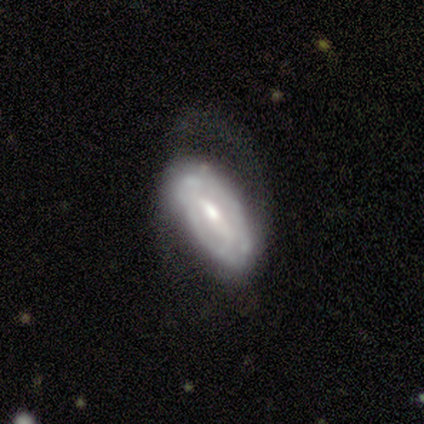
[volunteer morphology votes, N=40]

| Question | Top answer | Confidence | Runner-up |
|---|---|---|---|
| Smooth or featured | featured or disk | 75% | smooth (22%) |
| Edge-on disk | no | 87% | yes (13%) |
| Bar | weak | 50% | strong (35%) |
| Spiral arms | yes | 65% | no (35%) |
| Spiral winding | tight | 59% | medium (41%) |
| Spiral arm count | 2 | 59% | can't tell (35%) |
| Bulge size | moderate | 62% | small (35%) |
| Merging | none | 36% | minor disturbance (33%) |